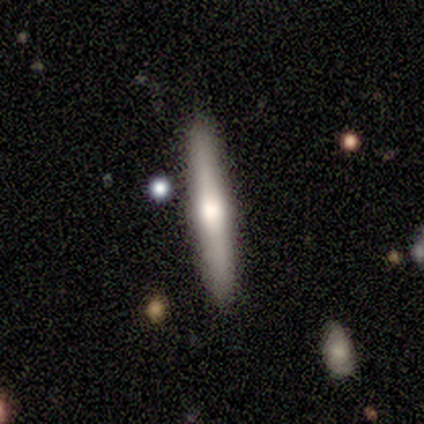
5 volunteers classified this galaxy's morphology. Overall: smooth (60%; featured or disk 40%). How rounded: cigar-shaped (100%). Merging: none (100%).